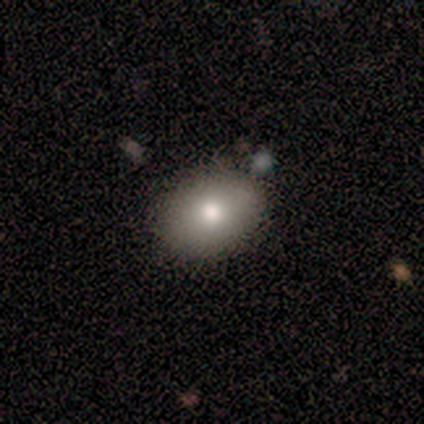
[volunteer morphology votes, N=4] smooth 75%, featured or disk 25%, star or artifact 0%. Down the decision tree: how rounded — in between (100%); merging — none (100%).